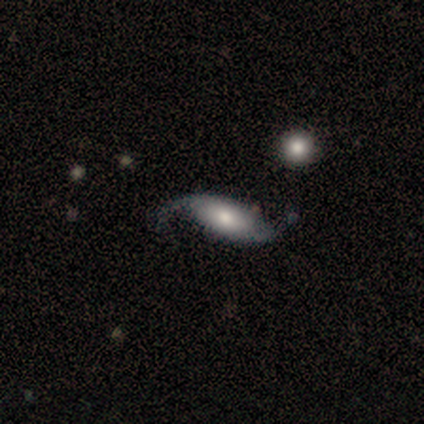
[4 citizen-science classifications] Smooth or featured? 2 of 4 (50%) said featured or disk. Edge-on disk? 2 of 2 (100%) said no. Bar? 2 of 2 (100%) said strong. Spiral arms? 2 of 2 (100%) said yes. Spiral winding? 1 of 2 (50%, tied with loose) said medium. Spiral arm count? 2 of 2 (100%) said 2. Bulge size? 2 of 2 (100%) said moderate. Merging? 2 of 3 (67%) said none.